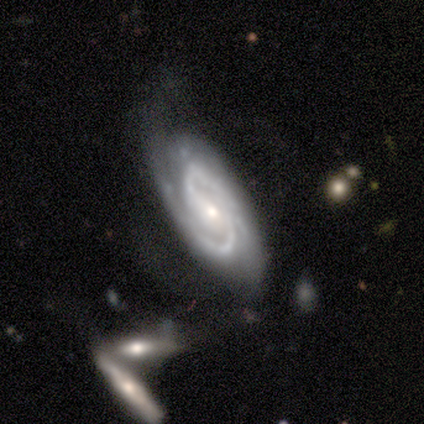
Morphology: type=featured or disk (100%); edge-on=no (100%); bar=weak (50%); spiral arms=yes (100%); winding=tight (50%, tied with medium); arm count=2 (100%); bulge=small (100%); merging=none (75%).